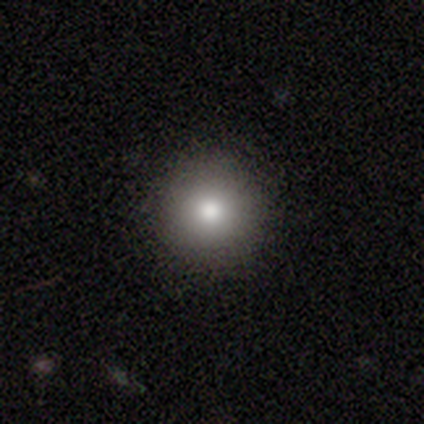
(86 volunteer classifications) Smooth or featured: smooth — 81% (star or artifact — 13%)
How rounded: round — 96% (in between — 4%)
Merging: none — 92% (minor disturbance — 7%)